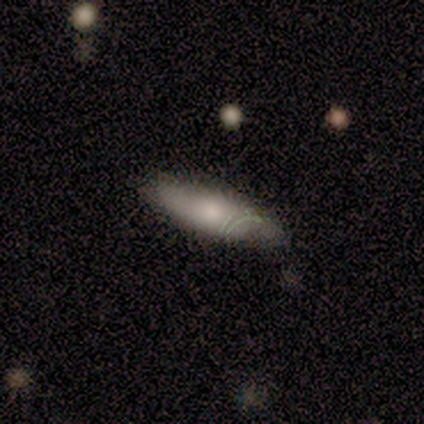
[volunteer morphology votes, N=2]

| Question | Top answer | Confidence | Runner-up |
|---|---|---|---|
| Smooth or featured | smooth | 100% | — |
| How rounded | in between | 50% | tied: cigar-shaped (50%) |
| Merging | none | 100% | — |